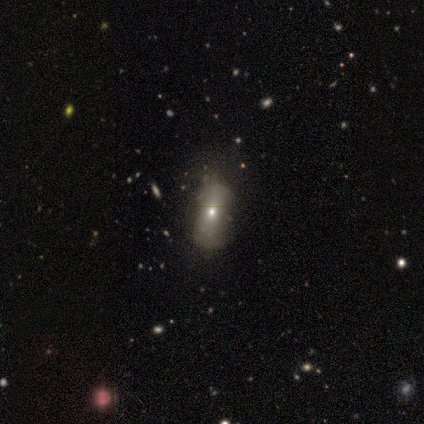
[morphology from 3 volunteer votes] Smooth or featured? 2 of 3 (67%) said smooth. How rounded? 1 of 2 (50%, tied with cigar-shaped) said in between. Merging? 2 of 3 (67%) said none.